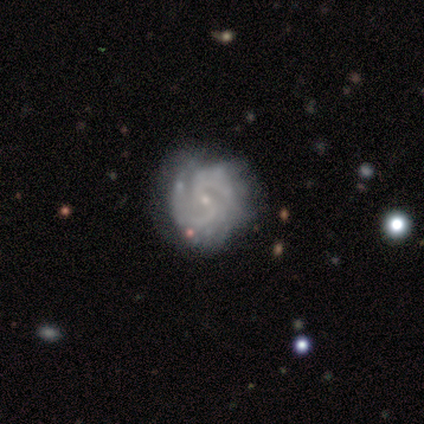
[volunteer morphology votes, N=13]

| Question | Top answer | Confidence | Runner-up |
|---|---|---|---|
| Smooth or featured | featured or disk | 92% | star or artifact (8%) |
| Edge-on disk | no | 100% | — |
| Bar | weak | 50% | tied: no (50%) |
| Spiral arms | yes | 100% | — |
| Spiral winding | tight | 58% | medium (33%) |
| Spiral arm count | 2 | 83% | can't tell (17%) |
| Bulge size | small | 100% | — |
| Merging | none | 92% | minor disturbance (8%) |